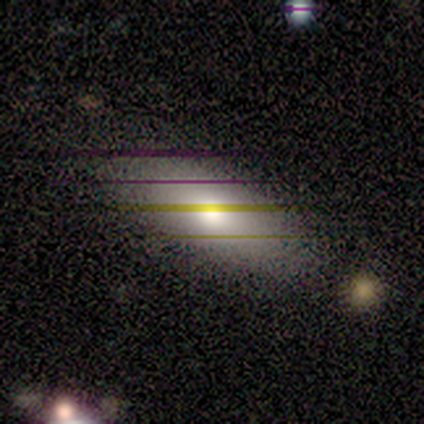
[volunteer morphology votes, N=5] Smooth or featured?
  - smooth: 60% *
  - featured or disk: 40%
  - star or artifact: 0%
How rounded?
  - in between: 100% *
  - round: 0%
  - cigar-shaped: 0%
Merging?
  - none: 100% *
  - minor disturbance: 0%
  - major disturbance: 0%
  - merger: 0%